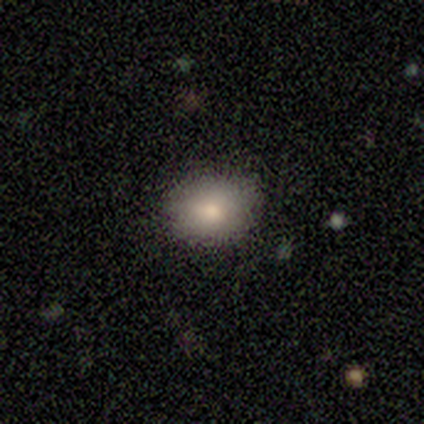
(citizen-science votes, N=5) This is clearly a smooth galaxy (80%). How rounded: likely round (75%). Merging: clearly none (80%).